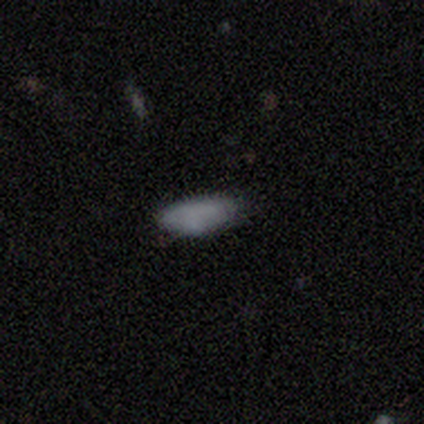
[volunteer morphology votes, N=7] Q: Smooth or featured?
A: smooth (100%)
Q: How rounded?
A: in between (86%); runner-up: cigar-shaped (14%)
Q: Merging?
A: none (86%); runner-up: minor disturbance (14%)